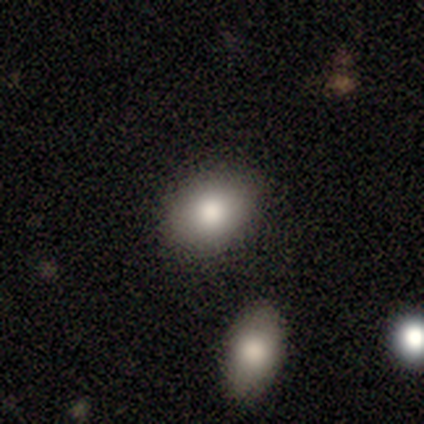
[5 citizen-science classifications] Smooth or featured?
  - smooth: 100% *
  - featured or disk: 0%
  - star or artifact: 0%
How rounded?
  - in between: 80% *
  - round: 20%
  - cigar-shaped: 0%
Merging?
  - none: 100% *
  - minor disturbance: 0%
  - major disturbance: 0%
  - merger: 0%